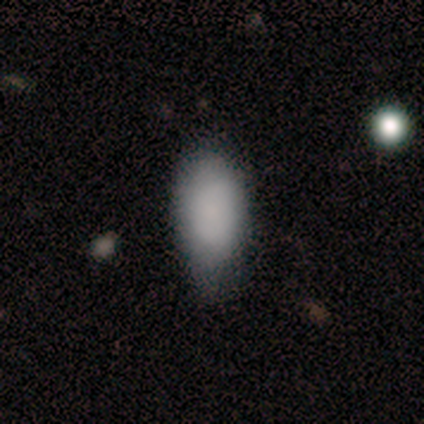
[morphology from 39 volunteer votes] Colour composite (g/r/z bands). It shows a smooth galaxy with no disk features (90%) that is in between round and cigar-shaped (94%). Merging: none (58%).